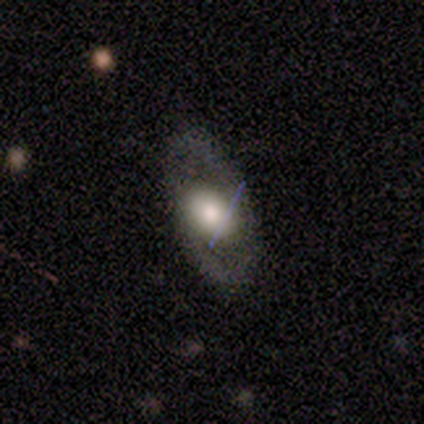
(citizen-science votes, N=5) Morphology: type=featured or disk (80%); edge-on=no (100%); bar=weak (50%, tied with no); spiral arms=yes (50%, tied with no); winding=medium (50%, tied with loose); arm count=2 (100%); bulge=large (75%); merging=none (60%).